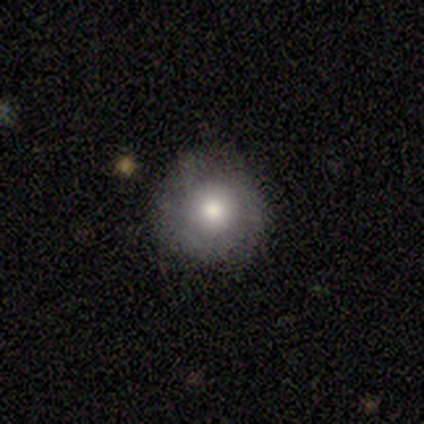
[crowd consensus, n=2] A smooth galaxy with no disk features (50%, tied with featured or disk) that is round (100%). Merging: none (100%).